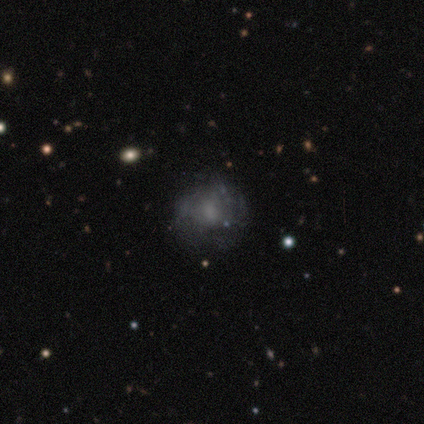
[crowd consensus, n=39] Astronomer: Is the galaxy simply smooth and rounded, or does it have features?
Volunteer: featured or disk — 64%.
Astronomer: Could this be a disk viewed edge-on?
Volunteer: no — 100%.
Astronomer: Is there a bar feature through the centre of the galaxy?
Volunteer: no — 72%.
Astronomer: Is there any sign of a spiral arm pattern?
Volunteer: no — 60% (runner-up: yes, 40%).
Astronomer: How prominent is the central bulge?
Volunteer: none — 40% (runner-up: small, 32%).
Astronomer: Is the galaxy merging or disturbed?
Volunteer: none — 38%.